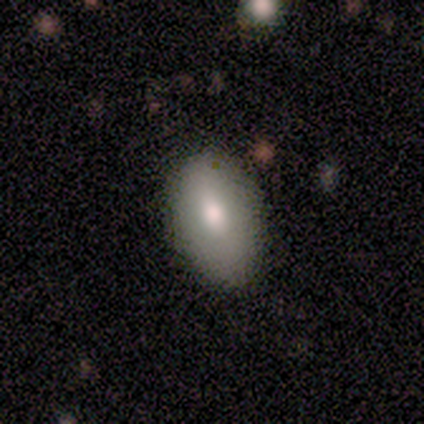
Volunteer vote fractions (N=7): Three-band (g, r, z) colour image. It shows a smooth galaxy with no disk features (100%) that is in between round and cigar-shaped (86%). Merging: none (71%).